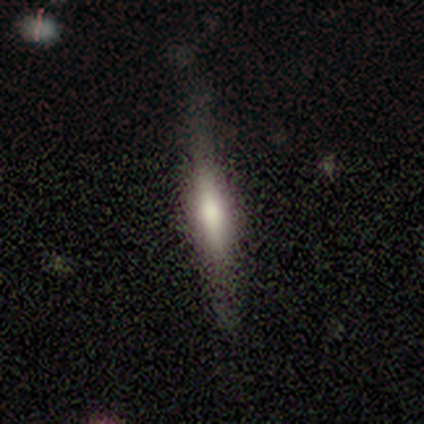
Smooth or featured: featured or disk — 60% (smooth — 40%)
Edge-on disk: yes — 67% (no — 33%)
Edge-on bulge: rounded — 100%
Merging: none — 40% (tied with minor disturbance — 40%)